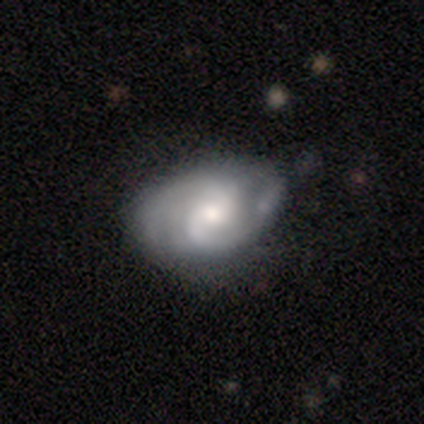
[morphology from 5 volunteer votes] Q: Smooth or featured?
A: featured or disk (80%); runner-up: star or artifact (20%)
Q: Edge-on disk?
A: no (100%)
Q: Bar?
A: no (75%); runner-up: weak (25%)
Q: Spiral arms?
A: yes (100%)
Q: Spiral winding?
A: tight (50%); tied with: medium (50%)
Q: Spiral arm count?
A: 2 (75%); runner-up: 3 (25%)
Q: Bulge size?
A: moderate (75%); runner-up: large (25%)
Q: Merging?
A: none (75%); runner-up: minor disturbance (25%)